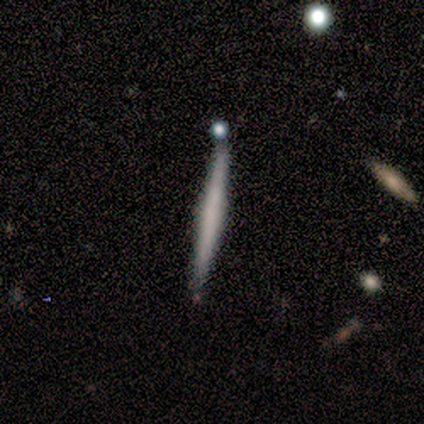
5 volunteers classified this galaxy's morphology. Volunteers were most divided on "smooth or featured": smooth: 60%, featured or disk: 40%, star or artifact: 0%. More confident: how rounded — cigar-shaped (100%); merging — none (100%).